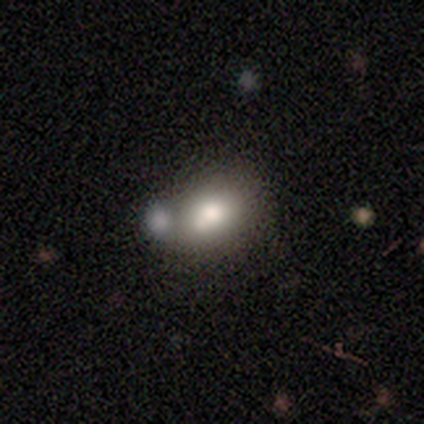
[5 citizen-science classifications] Smooth or featured?
  - featured or disk: 60% *
  - smooth: 20%
  - star or artifact: 20%
Edge-on disk?
  - no: 100% *
  - yes: 0%
Bar?
  - no: 67% *
  - strong: 33%
  - weak: 0%
Spiral arms?
  - no: 100% *
  - yes: 0%
Bulge size?
  - large: 67% *
  - dominant: 33%
  - moderate: 0%
  - small: 0%
  - none: 0%
Merging?
  - merger: 75% *
  - none: 25%
  - minor disturbance: 0%
  - major disturbance: 0%